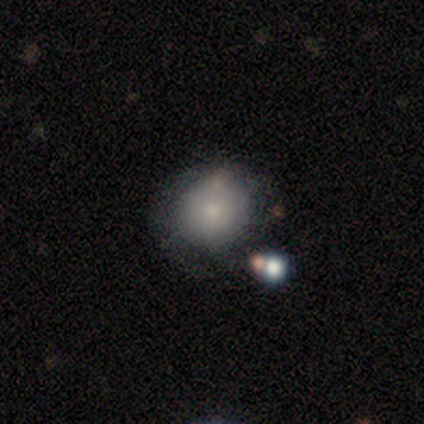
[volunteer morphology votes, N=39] type=smooth (77%); roundness=round (83%); merging=none (71%).